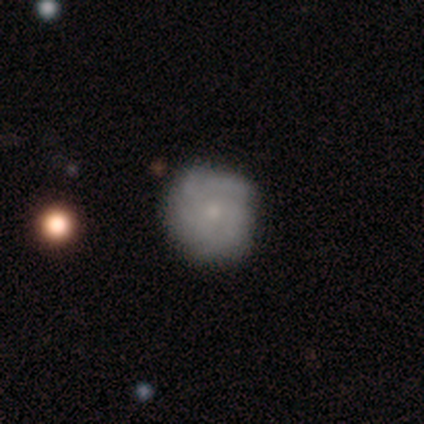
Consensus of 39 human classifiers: Morphology: type=featured or disk (62%); edge-on=no (100%); bar=no (92%); spiral arms=yes (79%); winding=tight (53%); arm count=can't tell (37%); bulge=small (71%); merging=none (77%).